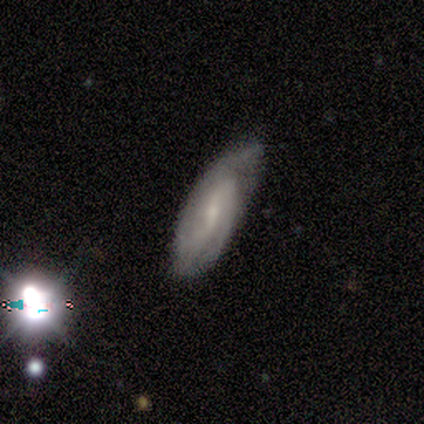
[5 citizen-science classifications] Smooth or featured?
  - featured or disk: 80% *
  - smooth: 20%
  - star or artifact: 0%
Edge-on disk?
  - no: 100% *
  - yes: 0%
Bar?
  - weak: 75% *
  - strong: 25%
  - no: 0%
Spiral arms?
  - yes: 100% *
  - no: 0%
Spiral winding?
  - tight: 50% * (tied)
  - medium: 50% * (tied)
  - loose: 0%
Spiral arm count?
  - 2: 75% *
  - can't tell: 25%
  - 1: 0%
  - 3: 0%
  - 4: 0%
  - more than 4: 0%
Bulge size?
  - small: 100% *
  - dominant: 0%
  - large: 0%
  - moderate: 0%
  - none: 0%
Merging?
  - none: 80% *
  - minor disturbance: 20%
  - major disturbance: 0%
  - merger: 0%